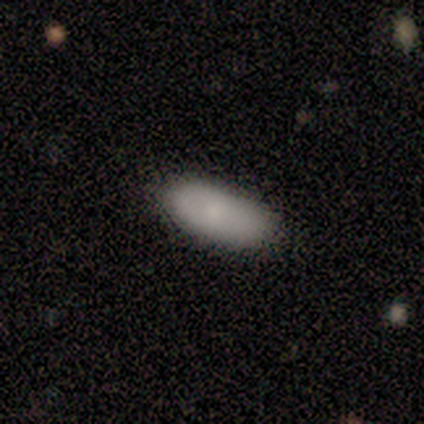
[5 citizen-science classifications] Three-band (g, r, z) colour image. It shows a smooth galaxy with no disk features (80%) that is in between round and cigar-shaped (100%). Merging: none (100%).